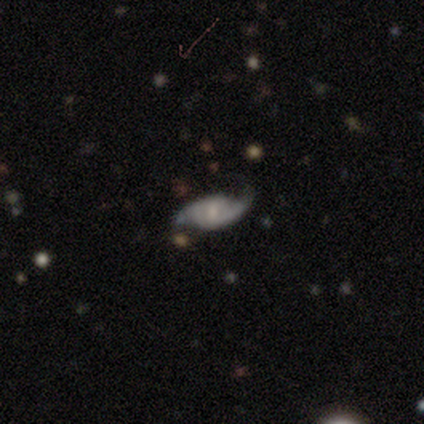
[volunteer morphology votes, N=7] Overall: featured or disk (57%; smooth 29%). Edge-on disk: no (100%). Bar: weak (75%). Spiral arms: yes (100%). Spiral arm count: 2 (100%). Spiral winding: medium (50%; tight 25%). Bulge size: small (75%). Merging: none (83%).